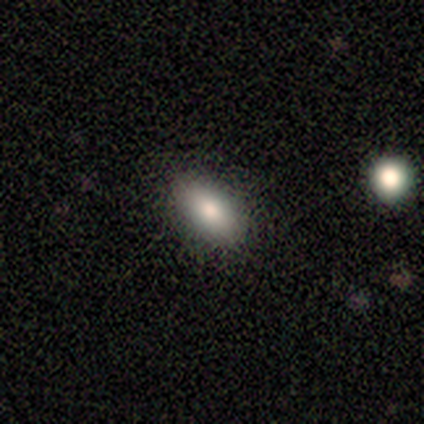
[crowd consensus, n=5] Q: Smooth or featured?
A: smooth (100%)
Q: How rounded?
A: in between (80%); runner-up: round (20%)
Q: Merging?
A: none (80%); runner-up: minor disturbance (20%)